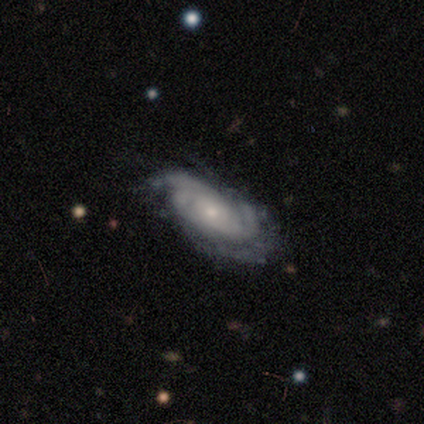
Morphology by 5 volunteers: Smooth or featured? featured or disk (100%)
Edge-on disk? no (100%)
Bar? no (80%)
Spiral arms? yes (100%)
Spiral winding? tight (80%)
Spiral arm count? 3 (60%)
Bulge size? small (80%)
Merging? none (60%)